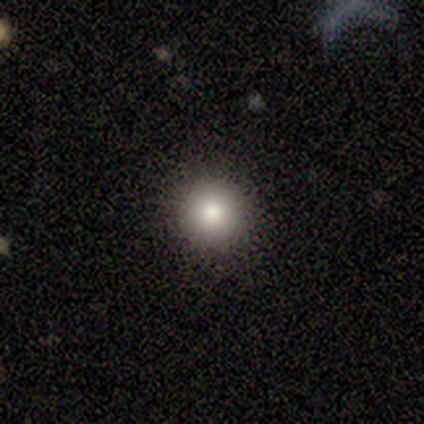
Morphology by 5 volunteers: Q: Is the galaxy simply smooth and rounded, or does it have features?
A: smooth — 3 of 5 (60%).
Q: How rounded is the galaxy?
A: round — 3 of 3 (100%).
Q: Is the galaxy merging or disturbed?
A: none — 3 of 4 (75%).